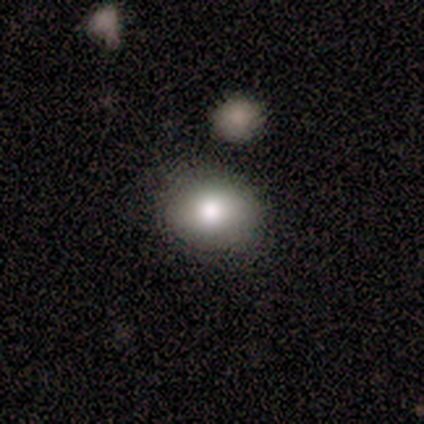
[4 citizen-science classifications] Smooth or featured? 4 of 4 (100%) said smooth. How rounded? 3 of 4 (75%) said in between. Merging? 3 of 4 (75%) said none.